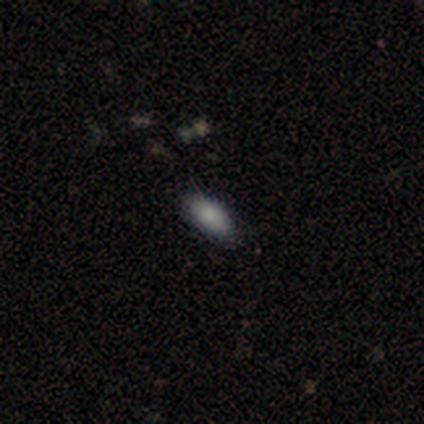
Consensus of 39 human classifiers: Overall: smooth (79%). How rounded: in between (87%). Merging: none (82%).